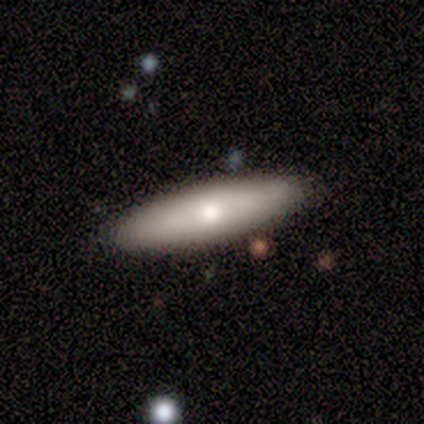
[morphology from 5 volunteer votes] A smooth galaxy with no disk features (100%) that is cigar-shaped (60%). Merging: none (80%).